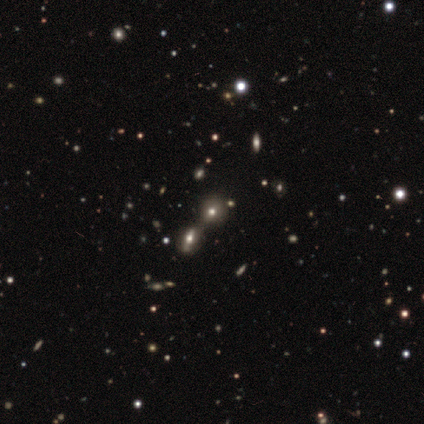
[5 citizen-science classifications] smooth 80%, featured or disk 20%, star or artifact 0%. Down the decision tree: how rounded — round (75%); merging — merger (60%).